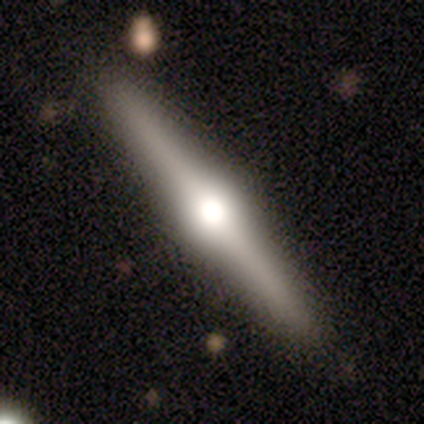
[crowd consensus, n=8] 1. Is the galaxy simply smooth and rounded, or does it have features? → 88% featured or disk, 12% star or artifact, 0% smooth.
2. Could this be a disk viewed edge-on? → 100% yes, 0% no.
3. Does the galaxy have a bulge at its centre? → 100% rounded, 0% boxy, 0% none.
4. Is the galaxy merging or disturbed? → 100% none, 0% minor disturbance, 0% major disturbance, 0% merger.